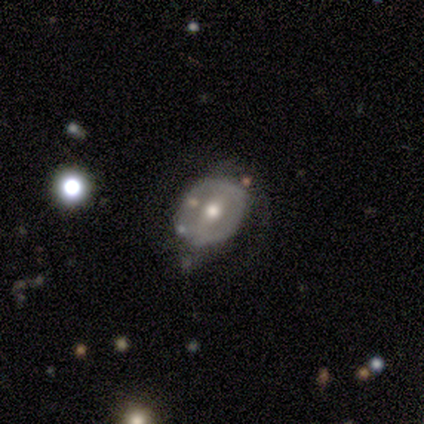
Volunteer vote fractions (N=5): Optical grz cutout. It shows a featured or disk galaxy (60%) with a strong bar (33%, tied with weak and no), 2 (100%) medium (50%, tied with loose) spiral arms (67%) and a moderate central bulge (100%). Merging: minor disturbance (60%).